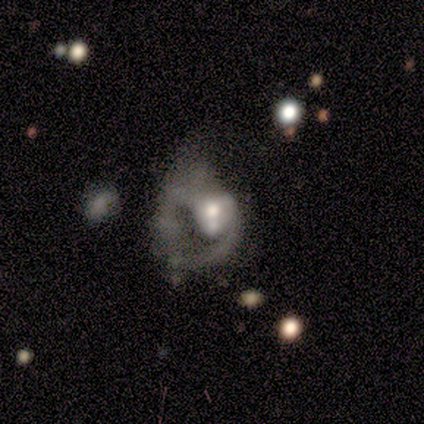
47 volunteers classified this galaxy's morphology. This is clearly a featured or disk galaxy (83%). It is clearly not viewed edge-on (97%). Bar: clearly no (89%). Spiral arm pattern: possibly no (53%). Central bulge: likely moderate (71%). Merging: possibly merger (55%).